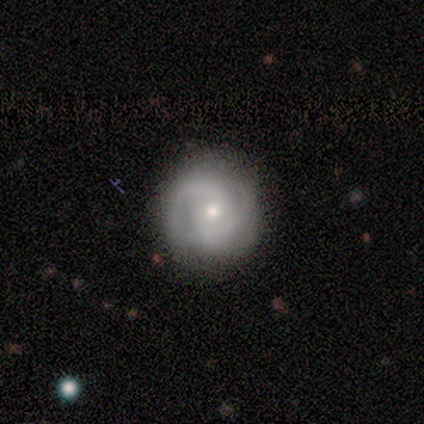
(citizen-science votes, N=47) A featured or disk galaxy (70%) with no bar (62%), 2 (67%) tight (57%) spiral arms (94%) and a moderate central bulge (59%).

Vote fractions:
- Smooth or featured? featured or disk: 70% / smooth: 19% / star or artifact: 11%
- Edge-on disk? no: 97% / yes: 3%
- Bar? no: 62% / weak: 28% / strong: 9%
- Spiral arms? yes: 94% / no: 6%
- Spiral winding? tight: 57% / medium: 37% / loose: 7%
- Spiral arm count? 2: 67% / can't tell: 20% / 3: 10% / 1: 3% / 4: 0% / more than 4: 0%
- Bulge size? moderate: 59% / small: 31% / large: 6% / dominant: 3% / none: 0%
- Merging? none: 81% / minor disturbance: 12% / major disturbance: 7% / merger: 0%